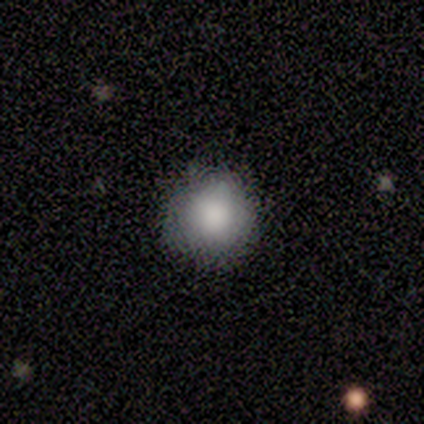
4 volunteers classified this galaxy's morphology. smooth 100%, featured or disk 0%, star or artifact 0%. Down the decision tree: how rounded — round (100%); merging — none (75%).